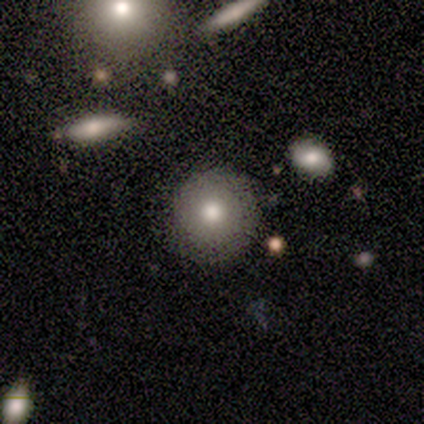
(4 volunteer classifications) Volunteers were most divided on "smooth or featured": smooth: 75%, featured or disk: 25%, star or artifact: 0%. More confident: how rounded — round (100%); merging — none (100%).